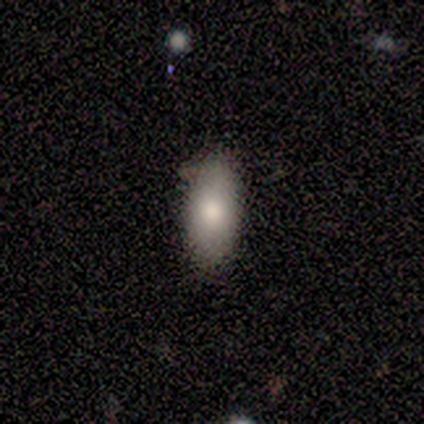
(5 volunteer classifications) A smooth galaxy with no disk features (80%) that is in between round and cigar-shaped (100%).

Vote fractions:
- Smooth or featured? smooth: 80% / star or artifact: 20% / featured or disk: 0%
- How rounded? in between: 100% / round: 0% / cigar-shaped: 0%
- Merging? none: 100% / minor disturbance: 0% / major disturbance: 0% / merger: 0%